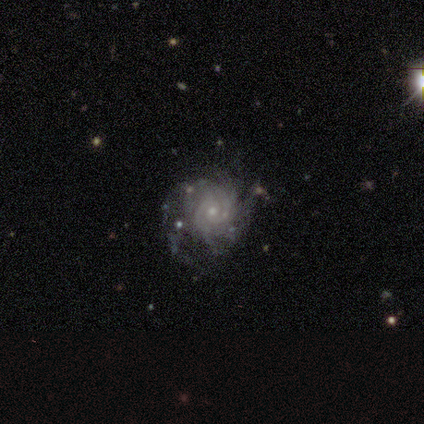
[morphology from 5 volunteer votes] This is clearly a featured or disk galaxy (100%). It is clearly not viewed edge-on (100%). Bar: likely no (60%). Spiral arm pattern: clearly yes (100%). Spiral arm count: likely 2 (60%). Spiral winding: likely tight (60%). Central bulge: likely moderate (60%). Merging: clearly none (80%).